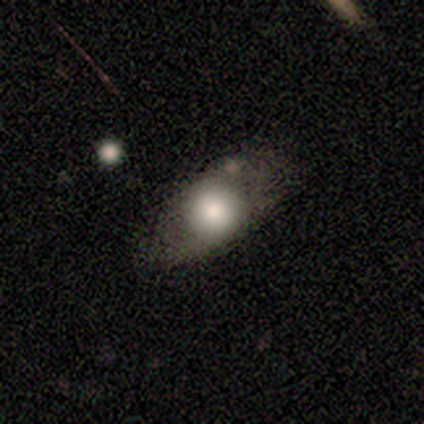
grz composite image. It shows a smooth galaxy with no disk features (71%) that is in between round and cigar-shaped (60%). Merging: none (57%).